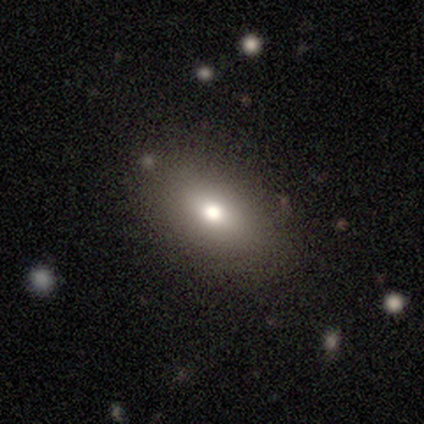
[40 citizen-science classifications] This appears to be a smooth galaxy with no disk features (78%) that is in between round and cigar-shaped (84%). Merging: none (79%).